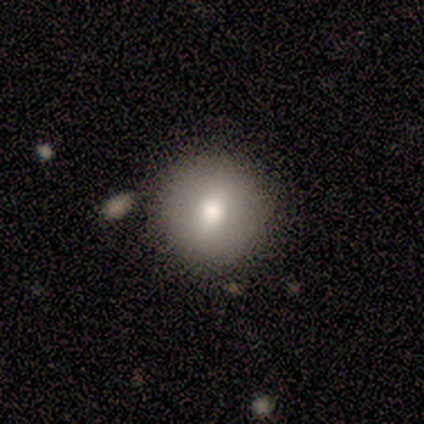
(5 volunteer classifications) Smooth or featured: smooth — 80% (featured or disk — 20%)
How rounded: round — 100%
Merging: none — 80% (merger — 20%)